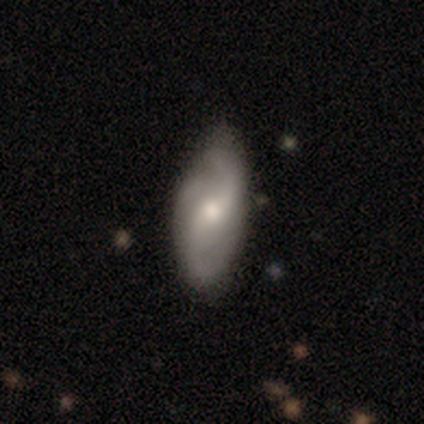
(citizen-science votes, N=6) Smooth or featured?
  - featured or disk: 67% *
  - smooth: 33%
  - star or artifact: 0%
Edge-on disk?
  - no: 100% *
  - yes: 0%
Bar?
  - weak: 50% * (tied)
  - no: 50% * (tied)
  - strong: 0%
Spiral arms?
  - yes: 100% *
  - no: 0%
Spiral winding?
  - medium: 50% *
  - tight: 25%
  - loose: 25%
Spiral arm count?
  - 2: 75% *
  - can't tell: 25%
  - 1: 0%
  - 3: 0%
  - 4: 0%
  - more than 4: 0%
Bulge size?
  - moderate: 75% *
  - small: 25%
  - dominant: 0%
  - large: 0%
  - none: 0%
Merging?
  - none: 67% *
  - minor disturbance: 33%
  - major disturbance: 0%
  - merger: 0%